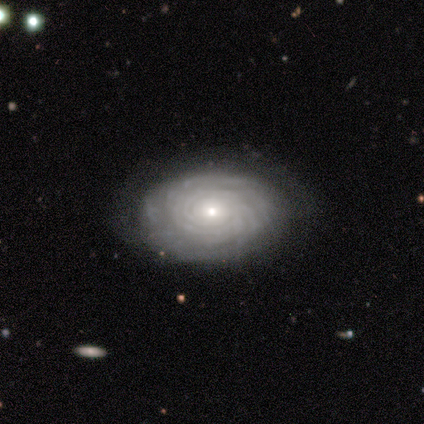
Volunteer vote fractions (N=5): Q: Smooth or featured?
A: featured or disk (100%)
Q: Edge-on disk?
A: no (100%)
Q: Bar?
A: no (80%); runner-up: weak (20%)
Q: Spiral arms?
A: yes (80%); runner-up: no (20%)
Q: Spiral winding?
A: tight (75%); runner-up: medium (25%)
Q: Spiral arm count?
A: more than 4 (50%); tied with: can't tell (50%)
Q: Bulge size?
A: small (100%)
Q: Merging?
A: none (100%)